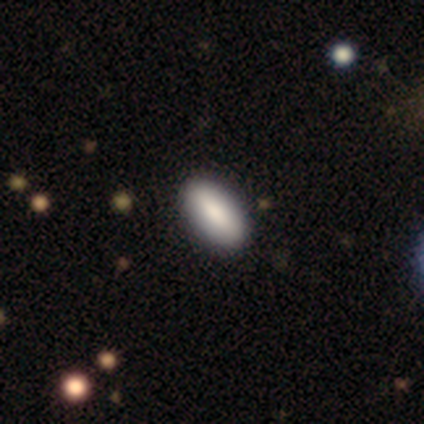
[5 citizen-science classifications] smooth_or_featured: smooth (p=1.00)
how_rounded: in between (p=1.00)
merging: none (p=0.80) [alt: merger p=0.20]